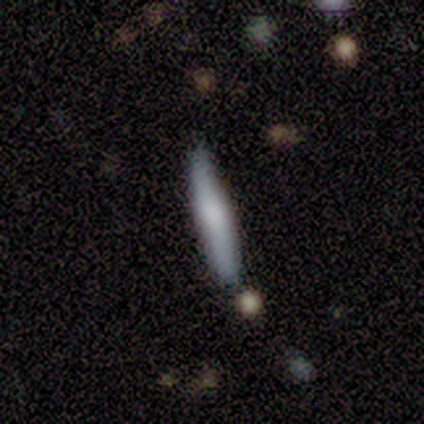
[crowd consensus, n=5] A smooth galaxy with no disk features (80%) that is cigar-shaped (100%). Merging: none (80%).